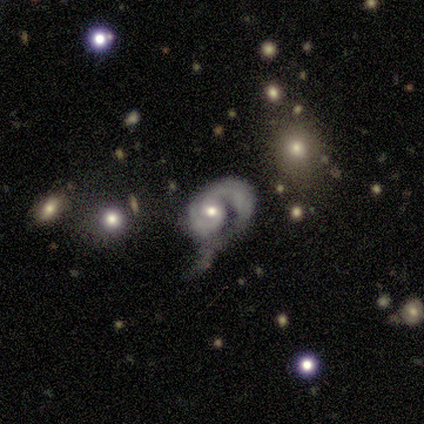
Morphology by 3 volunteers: A featured or disk galaxy (100%) with a weak bar (67%), 2 (67%) medium (67%) spiral arms (100%) and a dominant central bulge (33%, tied with moderate and none).

Vote fractions:
- Smooth or featured? featured or disk: 100% / smooth: 0% / star or artifact: 0%
- Edge-on disk? no: 100% / yes: 0%
- Bar? weak: 67% / no: 33% / strong: 0%
- Spiral arms? yes: 100% / no: 0%
- Spiral winding? medium: 67% / tight: 33% / loose: 0%
- Spiral arm count? 2: 67% / 1: 33% / 3: 0% / 4: 0% / more than 4: 0% / can't tell: 0%
- Bulge size? dominant: 33% (tied) / moderate: 33% (tied) / none: 33% (tied) / large: 0% / small: 0%
- Merging? minor disturbance: 33% (tied) / major disturbance: 33% (tied) / merger: 33% (tied) / none: 0%